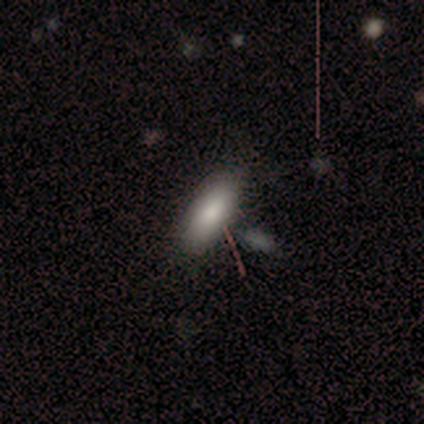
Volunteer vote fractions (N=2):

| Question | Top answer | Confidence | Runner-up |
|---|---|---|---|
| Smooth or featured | smooth | 100% | — |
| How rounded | in between | 50% | tied: cigar-shaped (50%) |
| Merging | none | 50% | tied: merger (50%) |